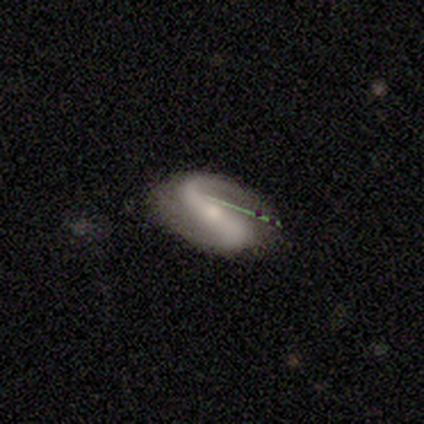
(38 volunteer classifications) This is clearly a featured or disk galaxy (89%). It is clearly not viewed edge-on (94%). Bar: likely strong (66%). Spiral arm pattern: clearly yes (91%). Spiral arm count: clearly 2 (90%). Spiral winding: likely loose (72%). Central bulge: possibly small (50%). Merging: possibly none (56%).